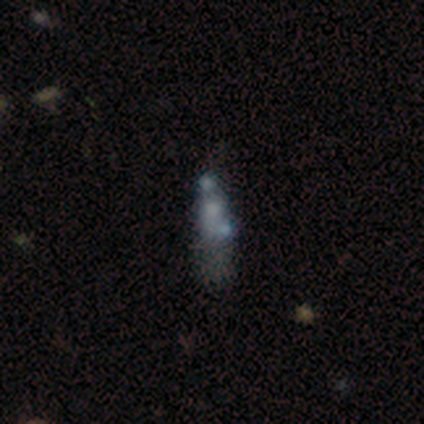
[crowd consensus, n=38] smooth-or-featured: featured or disk: 45% | smooth: 32% | star or artifact: 24%
  disk-edge-on: no: 94% | yes: 6%
    bar: no: 94% | weak: 6% | strong: 0%
    has-spiral-arms: no: 94% | yes: 6%
    bulge-size: none: 50% | small: 25% | large: 12% | moderate: 12% | dominant: 0%
  merging: merger: 41% | none: 21% | minor disturbance: 21% | major disturbance: 17%